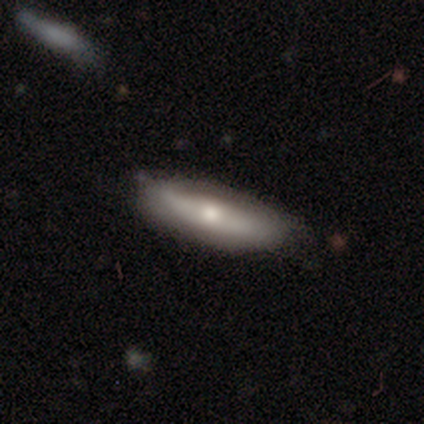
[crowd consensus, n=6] Smooth or featured?
  - smooth: 50% * (tied)
  - featured or disk: 50% * (tied)
  - star or artifact: 0%
How rounded?
  - round: 33% * (tied)
  - in between: 33% * (tied)
  - cigar-shaped: 33% * (tied)
Merging?
  - none: 83% *
  - minor disturbance: 17%
  - major disturbance: 0%
  - merger: 0%